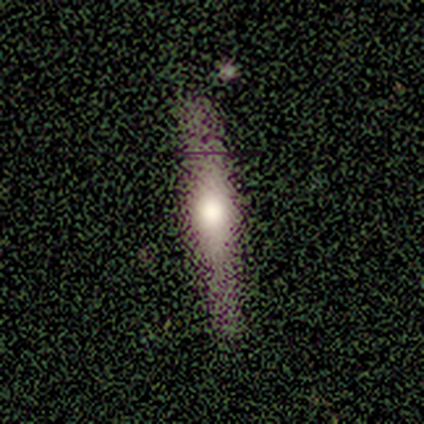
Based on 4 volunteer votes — Q: Smooth or featured?
A: smooth (75%); runner-up: star or artifact (25%)
Q: How rounded?
A: cigar-shaped (100%)
Q: Merging?
A: none (100%)